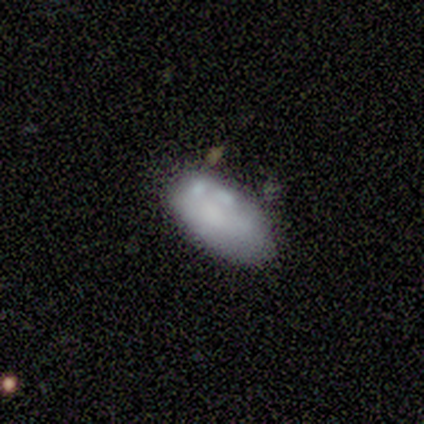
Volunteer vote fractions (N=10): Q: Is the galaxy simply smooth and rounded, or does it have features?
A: featured or disk — 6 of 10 (60%).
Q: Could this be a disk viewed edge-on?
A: no — 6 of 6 (100%).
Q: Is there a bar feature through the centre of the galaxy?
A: no — 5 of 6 (83%).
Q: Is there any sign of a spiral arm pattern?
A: no — 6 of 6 (100%).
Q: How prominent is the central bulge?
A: none — 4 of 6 (67%).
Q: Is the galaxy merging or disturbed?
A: none — 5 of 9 (56%).